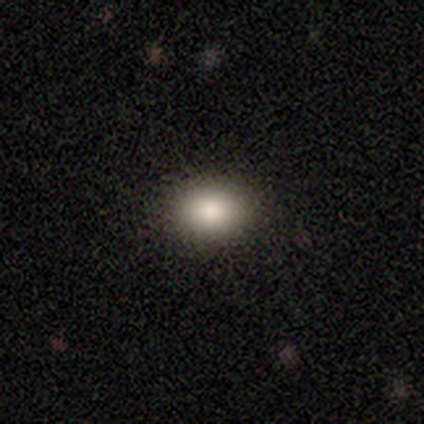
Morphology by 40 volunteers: Smooth or featured: smooth — 80% (star or artifact — 12%)
How rounded: in between — 62% (round — 38%)
Merging: none — 97% (minor disturbance — 3%)